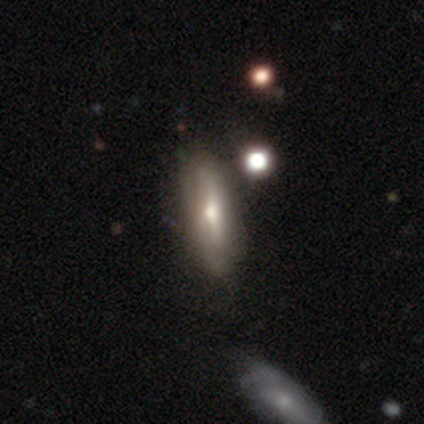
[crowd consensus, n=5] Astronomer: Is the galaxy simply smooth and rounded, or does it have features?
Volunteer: smooth — 100%.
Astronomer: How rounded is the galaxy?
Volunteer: in between — 100%.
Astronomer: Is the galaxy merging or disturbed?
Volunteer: none — 80%.